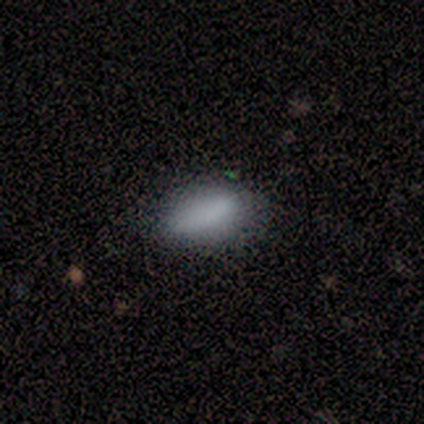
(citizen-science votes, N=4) Overall: smooth (100%). How rounded: in between (50%, tied with cigar-shaped). Merging: none (100%).